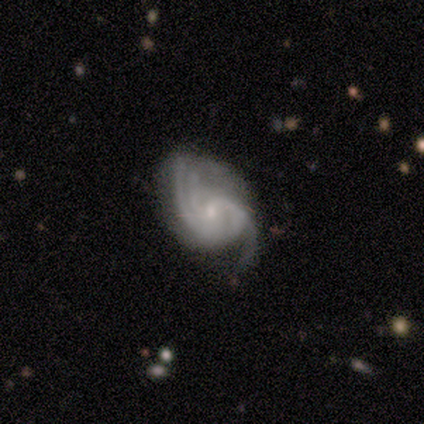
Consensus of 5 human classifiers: smooth-or-featured: featured or disk: 80% | star or artifact: 20% | smooth: 0%
  disk-edge-on: no: 100% | yes: 0%
    bar: weak: 75% | no: 25% | strong: 0%
    has-spiral-arms: yes: 100% | no: 0%
      spiral-winding: medium: 50% (tied) | loose: 50% (tied) | tight: 0%
      spiral-arm-count: 3: 75% | 2: 25% | 1: 0% | 4: 0% | more than 4: 0% | can't tell: 0%
    bulge-size: small: 100% | dominant: 0% | large: 0% | moderate: 0% | none: 0%
  merging: none: 100% | minor disturbance: 0% | major disturbance: 0% | merger: 0%